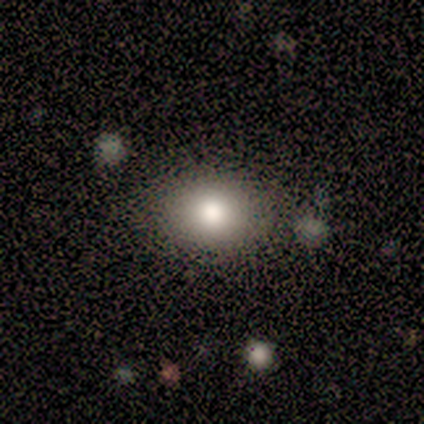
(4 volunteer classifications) Morphology: type=smooth (100%); roundness=in between (100%); merging=none (100%).